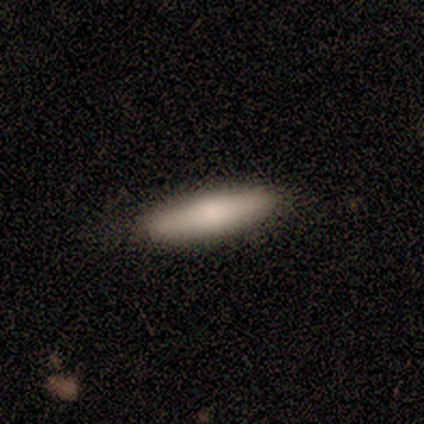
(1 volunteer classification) Consensus on every question: smooth or featured — smooth (100%); how rounded — in between (100%); merging — none (100%).